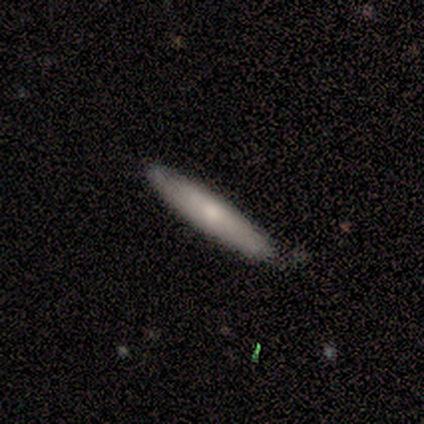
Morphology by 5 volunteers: Volunteers were most divided on "smooth or featured": smooth: 60%, featured or disk: 40%, star or artifact: 0%. More confident: how rounded — cigar-shaped (100%); merging — none (80%).